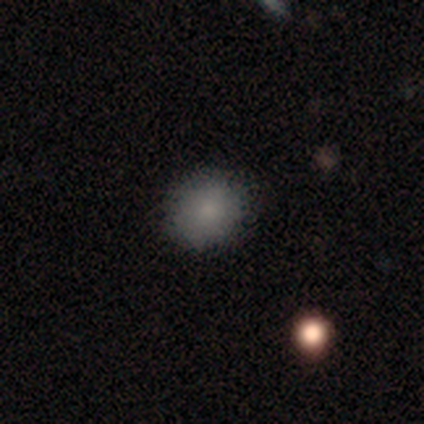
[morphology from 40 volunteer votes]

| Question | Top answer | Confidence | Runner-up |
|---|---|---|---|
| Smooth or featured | smooth | 88% | featured or disk (8%) |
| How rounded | round | 91% | in between (9%) |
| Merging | none | 89% | minor disturbance (5%) |